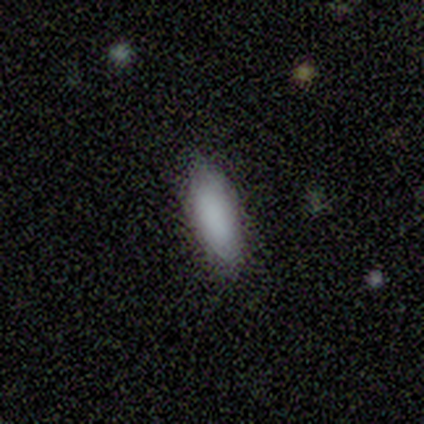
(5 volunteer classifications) Overall: smooth (100%). How rounded: in between (100%). Merging: none (80%).